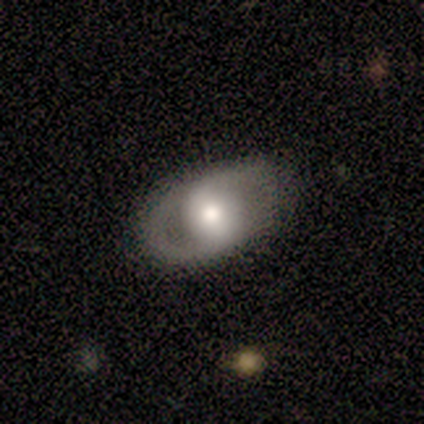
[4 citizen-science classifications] This is clearly a featured or disk galaxy (100%). It is clearly not viewed edge-on (100%). Bar: likely no (75%). Spiral arm pattern: possibly yes (50%, tied with no). Spiral arm count: possibly 2 (50%, tied with can't tell). Spiral winding: possibly medium (50%, tied with loose). Central bulge: clearly moderate (100%). Merging: likely none (75%).